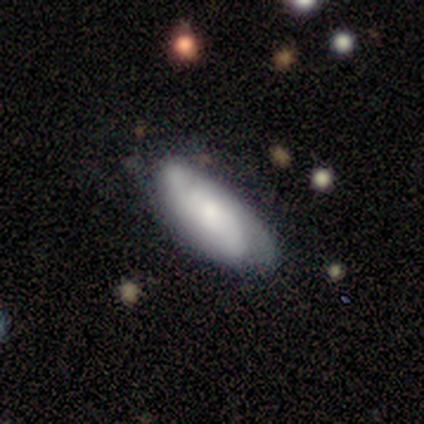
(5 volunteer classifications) This is clearly a featured or disk galaxy (80%). It is clearly not viewed edge-on (100%). Bar: clearly no (100%). Spiral arm pattern: clearly yes (100%). Spiral arm count: possibly 2 (50%, tied with can't tell). Spiral winding: possibly tight (50%, tied with medium). Central bulge: possibly moderate (50%, tied with small). Merging: likely none (60%).